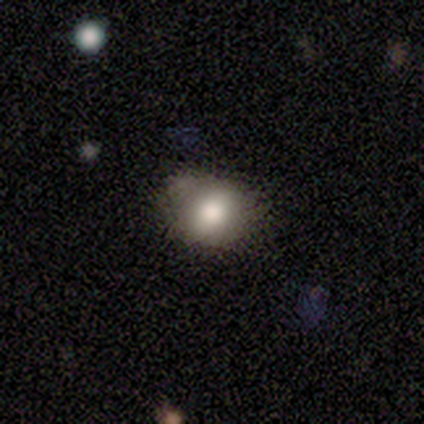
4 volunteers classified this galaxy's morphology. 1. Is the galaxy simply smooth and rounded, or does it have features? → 50% smooth (tied), 50% featured or disk (tied), 0% star or artifact.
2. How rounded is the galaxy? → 100% round, 0% in between, 0% cigar-shaped.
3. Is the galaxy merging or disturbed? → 75% none, 25% minor disturbance, 0% major disturbance, 0% merger.